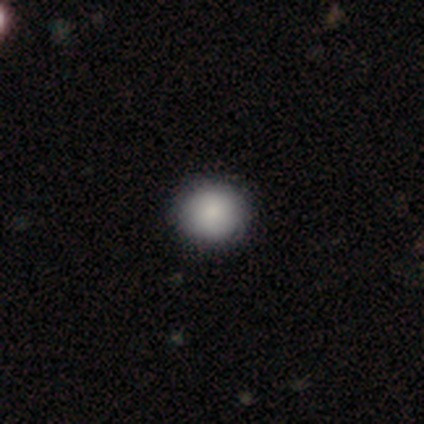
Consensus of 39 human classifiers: A smooth galaxy with no disk features (97%) that is round (95%). Merging: none (90%).